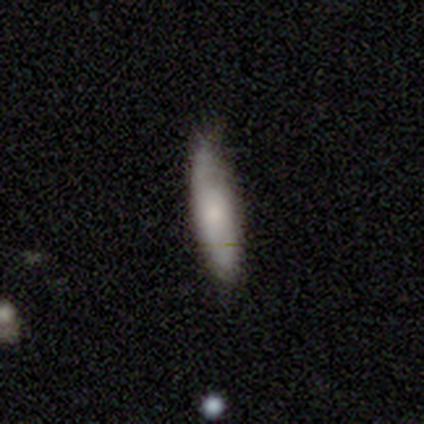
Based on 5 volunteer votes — Q: Smooth or featured?
A: smooth (80%); runner-up: featured or disk (20%)
Q: How rounded?
A: cigar-shaped (75%); runner-up: in between (25%)
Q: Merging?
A: none (80%); runner-up: minor disturbance (20%)